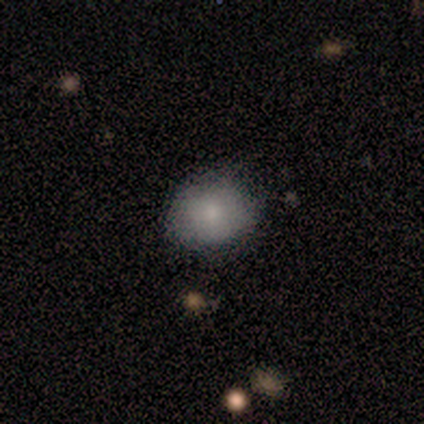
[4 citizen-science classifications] Smooth or featured?
  - smooth: 75% *
  - star or artifact: 25%
  - featured or disk: 0%
How rounded?
  - round: 67% *
  - in between: 33%
  - cigar-shaped: 0%
Merging?
  - none: 67% *
  - minor disturbance: 33%
  - major disturbance: 0%
  - merger: 0%